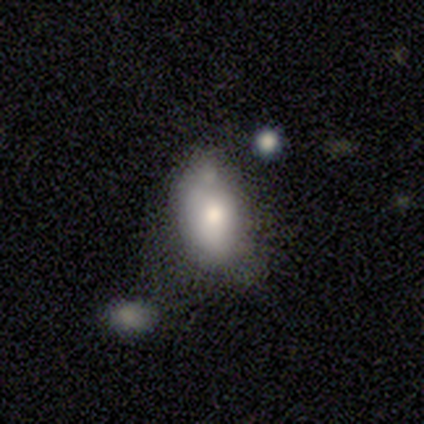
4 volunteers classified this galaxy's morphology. Smooth or featured? 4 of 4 (100%) said smooth. How rounded? 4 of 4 (100%) said in between. Merging? 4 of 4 (100%) said none.